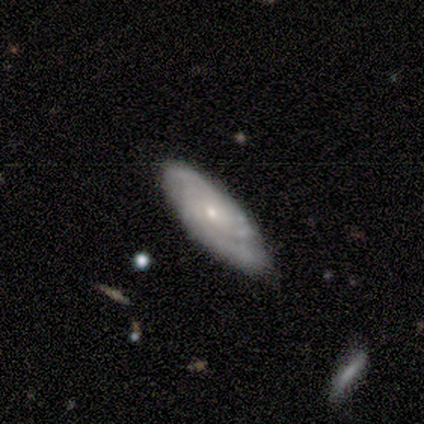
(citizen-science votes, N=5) Q: Smooth or featured?
A: featured or disk (80%); runner-up: smooth (20%)
Q: Edge-on disk?
A: no (100%)
Q: Bar?
A: no (100%)
Q: Spiral arms?
A: yes (100%)
Q: Spiral winding?
A: tight (75%); runner-up: medium (25%)
Q: Spiral arm count?
A: 2 (50%); runner-up: more than 4 (25%)
Q: Bulge size?
A: small (100%)
Q: Merging?
A: none (100%)